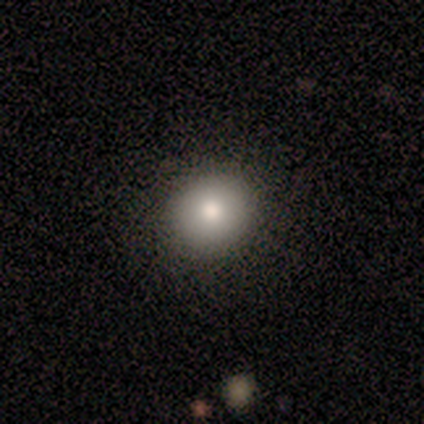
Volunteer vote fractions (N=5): Smooth or featured: smooth — 60% (featured or disk — 40%)
How rounded: round — 100%
Merging: none — 80% (merger — 20%)